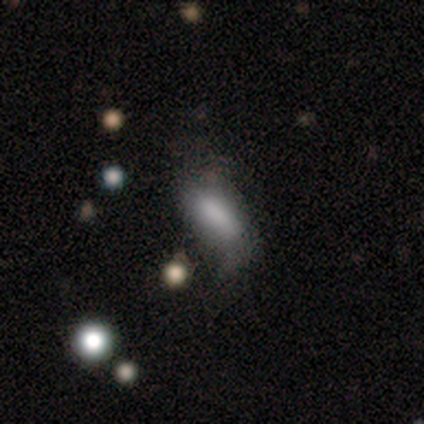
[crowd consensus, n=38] Smooth or featured: smooth — 63% (featured or disk — 32%)
How rounded: in between — 75% (cigar-shaped — 25%)
Merging: minor disturbance — 33% (none — 22%)